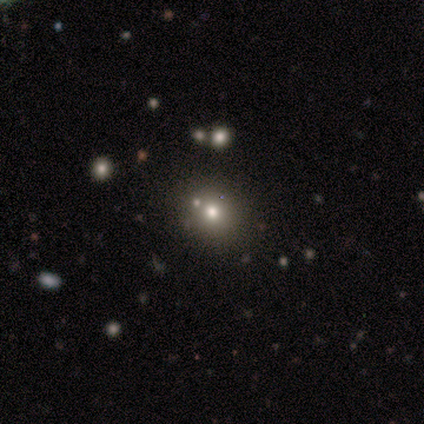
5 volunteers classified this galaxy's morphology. Smooth or featured: smooth — 80% (star or artifact — 20%)
How rounded: round — 100%
Merging: none — 100%